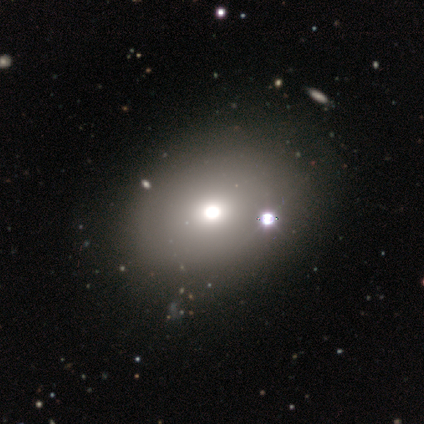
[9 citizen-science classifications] smooth 67%, featured or disk 22%, star or artifact 11%. Down the decision tree: how rounded — round (83%); merging — none (88%).